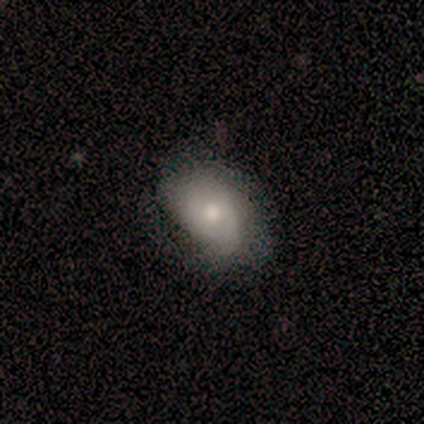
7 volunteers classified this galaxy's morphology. type=featured or disk (57%); edge-on=no (75%); bar=no (100%); spiral arms=no (67%); bulge=moderate (67%); merging=none (57%).